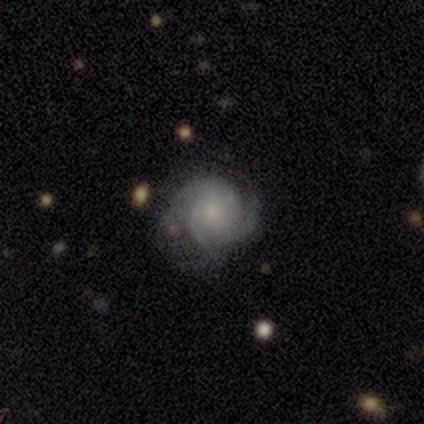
Smooth or featured? 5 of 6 (83%) said featured or disk. Edge-on disk? 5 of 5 (100%) said no. Bar? 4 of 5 (80%) said no. Spiral arms? 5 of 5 (100%) said yes. Spiral winding? 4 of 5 (80%) said tight. Spiral arm count? 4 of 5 (80%) said 3. Bulge size? 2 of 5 (40%, tied with small) said moderate. Merging? 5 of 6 (83%) said none.